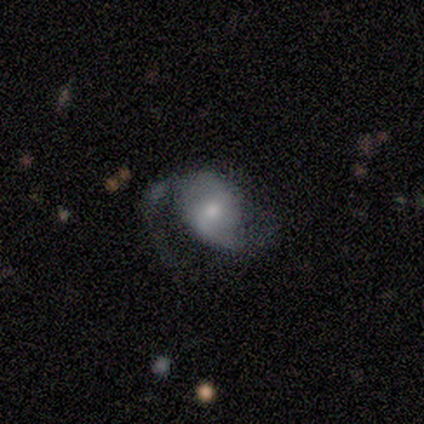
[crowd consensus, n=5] A featured or disk galaxy (80%) with no bar (75%), 2 (100%) loose (67%) spiral arms (75%) and a moderate central bulge (75%).

Vote fractions:
- Smooth or featured? featured or disk: 80% / smooth: 20% / star or artifact: 0%
- Edge-on disk? no: 100% / yes: 0%
- Bar? no: 75% / weak: 25% / strong: 0%
- Spiral arms? yes: 75% / no: 25%
- Spiral winding? loose: 67% / medium: 33% / tight: 0%
- Spiral arm count? 2: 100% / 1: 0% / 3: 0% / 4: 0% / more than 4: 0% / can't tell: 0%
- Bulge size? moderate: 75% / small: 25% / dominant: 0% / large: 0% / none: 0%
- Merging? minor disturbance: 60% / none: 40% / major disturbance: 0% / merger: 0%